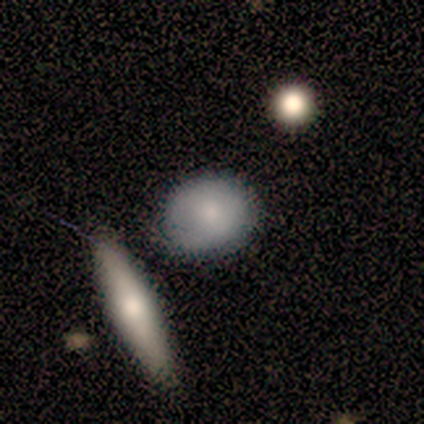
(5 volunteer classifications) Morphology: type=smooth (80%); roundness=in between (75%); merging=none (60%).